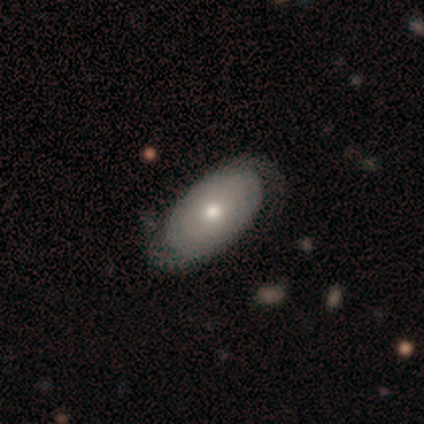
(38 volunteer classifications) A featured or disk galaxy (76%) with no bar (85%), 2 (72%) tight (67%) spiral arms (67%) and a moderate central bulge (85%). Merging: none (47%).